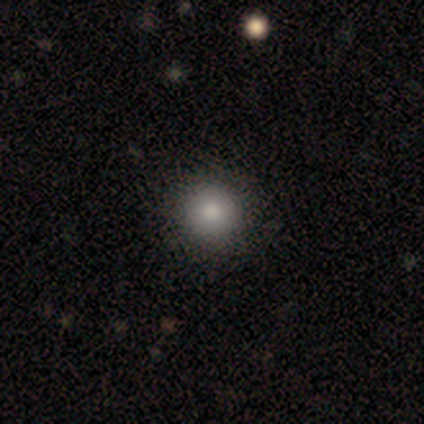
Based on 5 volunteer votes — Smooth or featured?
  - smooth: 80% *
  - star or artifact: 20%
  - featured or disk: 0%
How rounded?
  - round: 100% *
  - in between: 0%
  - cigar-shaped: 0%
Merging?
  - none: 100% *
  - minor disturbance: 0%
  - major disturbance: 0%
  - merger: 0%